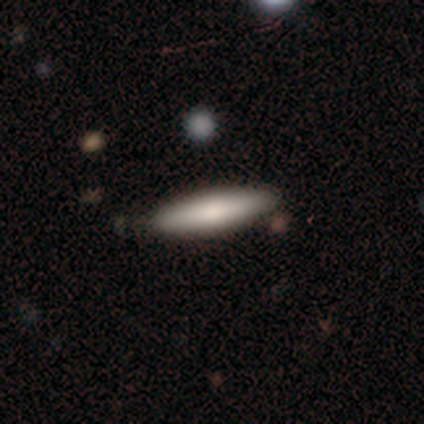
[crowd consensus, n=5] Q: Smooth or featured?
A: smooth (60%); runner-up: featured or disk (40%)
Q: How rounded?
A: cigar-shaped (67%); runner-up: in between (33%)
Q: Merging?
A: none (80%); runner-up: minor disturbance (20%)